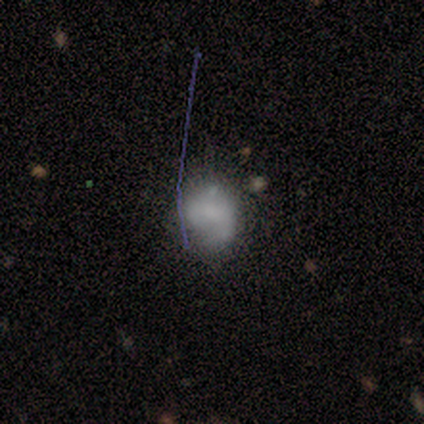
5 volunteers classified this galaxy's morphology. This appears to be a smooth galaxy with no disk features (40%, tied with star or artifact) that is round (100%). Merging: minor disturbance (67%).